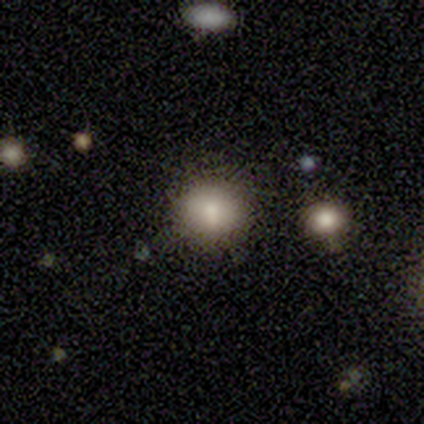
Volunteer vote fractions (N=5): Smooth or featured: smooth — 60% (star or artifact — 40%)
How rounded: round — 100%
Merging: none — 67% (minor disturbance — 33%)